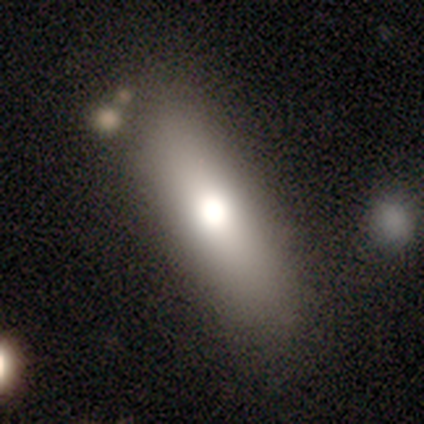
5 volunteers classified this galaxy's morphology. smooth_or_featured: smooth (p=0.60) [alt: star or artifact p=0.40]
how_rounded: cigar-shaped (p=1.00)
merging: none (p=0.67) [alt: minor disturbance p=0.33]